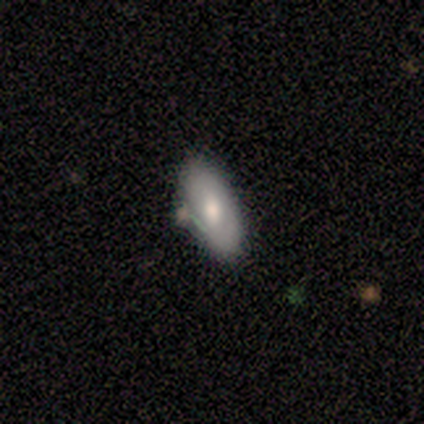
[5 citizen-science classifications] Smooth or featured: smooth — 100%
How rounded: in between — 80% (cigar-shaped — 20%)
Merging: none — 40% (tied with merger — 40%)